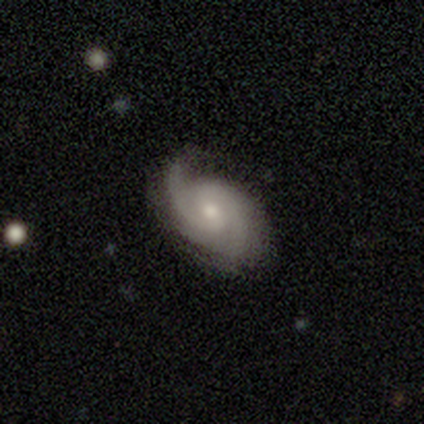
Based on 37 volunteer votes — A featured or disk galaxy (86%) with no bar (53%), 2 (60%) medium (53%) spiral arms (100%) and a small central bulge (57%).

Vote fractions:
- Smooth or featured? featured or disk: 86% / smooth: 11% / star or artifact: 3%
- Edge-on disk? no: 94% / yes: 6%
- Bar? no: 53% / weak: 33% / strong: 13%
- Spiral arms? yes: 100% / no: 0%
- Spiral winding? medium: 53% / tight: 37% / loose: 10%
- Spiral arm count? 2: 60% / 1: 10% / 3: 10% / 4: 10% / can't tell: 10% / more than 4: 0%
- Bulge size? small: 57% / moderate: 40% / large: 3% / dominant: 0% / none: 0%
- Merging? none: 75% / minor disturbance: 14% / major disturbance: 8% / merger: 3%